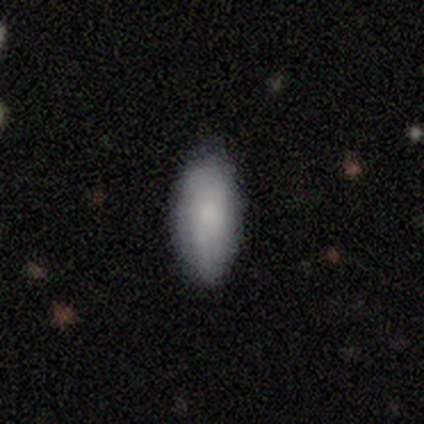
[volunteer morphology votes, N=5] A smooth galaxy with no disk features (100%) that is in between round and cigar-shaped (100%).

Vote fractions:
- Smooth or featured? smooth: 100% / featured or disk: 0% / star or artifact: 0%
- How rounded? in between: 100% / round: 0% / cigar-shaped: 0%
- Merging? none: 100% / minor disturbance: 0% / major disturbance: 0% / merger: 0%